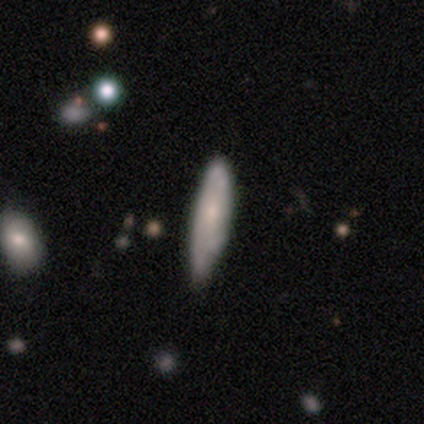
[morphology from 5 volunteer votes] Smooth or featured? 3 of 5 (60%) said smooth. How rounded? 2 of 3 (67%) said in between. Merging? 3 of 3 (100%) said none.